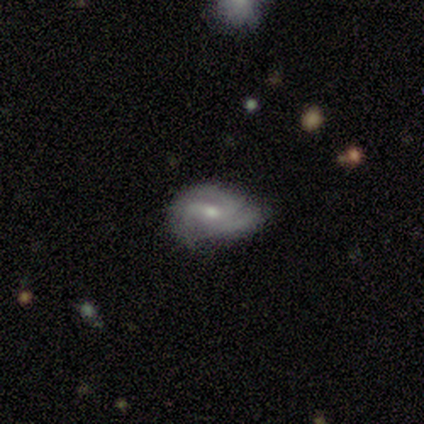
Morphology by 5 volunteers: featured or disk 100%, smooth 0%, star or artifact 0%. Down the decision tree: edge-on disk — no (100%); bar — weak (60%); spiral arms — yes (100%); spiral arm count — 2 (40%, tied with 3); spiral winding — medium (80%); bulge size — moderate (80%); merging — none (60%).